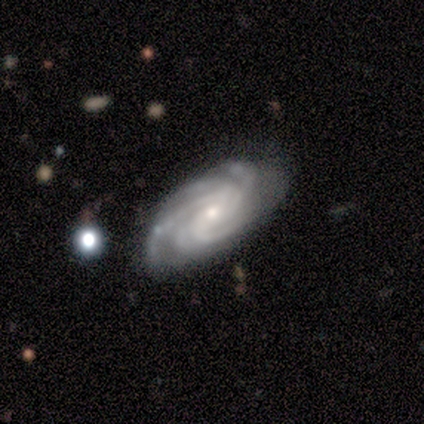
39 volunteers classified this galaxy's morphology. A featured or disk galaxy (92%) with no bar (49%), more than 4 (34%) tight (49%) spiral arms (100%) and a small central bulge (60%). Merging: none (76%).